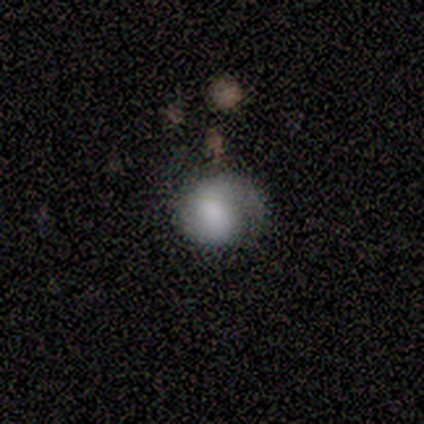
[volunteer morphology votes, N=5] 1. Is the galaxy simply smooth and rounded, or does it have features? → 80% smooth, 20% featured or disk, 0% star or artifact.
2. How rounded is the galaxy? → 75% round, 25% in between, 0% cigar-shaped.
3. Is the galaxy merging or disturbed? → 40% minor disturbance (tied), 40% major disturbance (tied), 20% none, 0% merger.